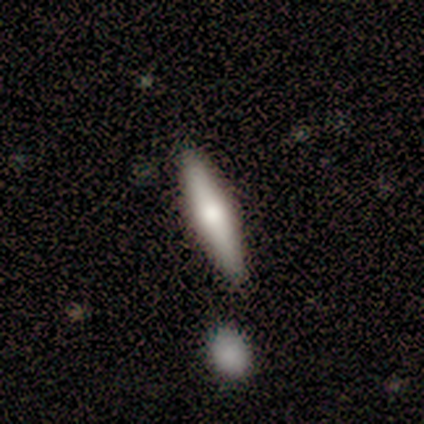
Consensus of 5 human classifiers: This is likely a smooth galaxy (60%). How rounded: clearly cigar-shaped (100%). Merging: clearly none (100%).